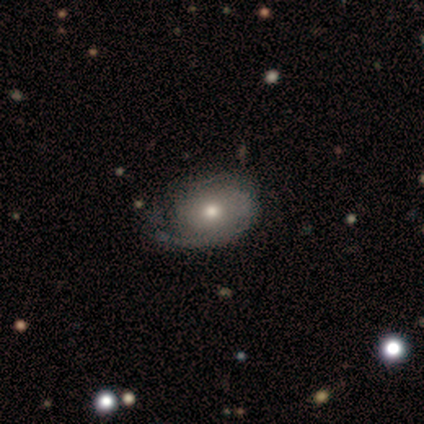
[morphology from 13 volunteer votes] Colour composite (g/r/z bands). It shows a featured or disk galaxy (54%) with no bar (86%), 1 (43%) medium (57%) spiral arms (100%) and a moderate central bulge (71%). Merging: none (77%).